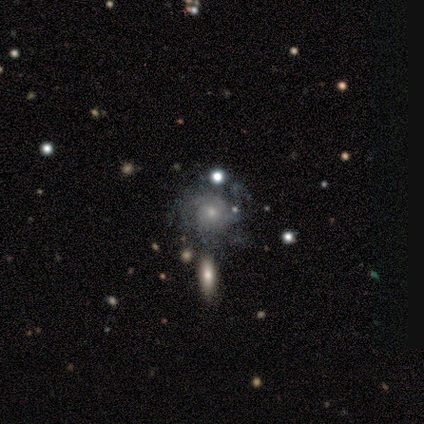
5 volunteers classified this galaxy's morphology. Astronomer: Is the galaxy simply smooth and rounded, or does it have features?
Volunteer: featured or disk — 60%.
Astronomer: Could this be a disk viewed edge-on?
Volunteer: no — 100%.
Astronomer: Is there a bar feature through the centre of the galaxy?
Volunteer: no — 100%.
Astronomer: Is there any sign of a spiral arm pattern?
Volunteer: yes — 100%.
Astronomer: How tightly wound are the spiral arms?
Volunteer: tight — 67%.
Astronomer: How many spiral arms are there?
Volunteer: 2 — 67%.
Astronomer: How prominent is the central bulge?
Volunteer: small — 67%.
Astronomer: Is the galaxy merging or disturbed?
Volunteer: none — 75%.